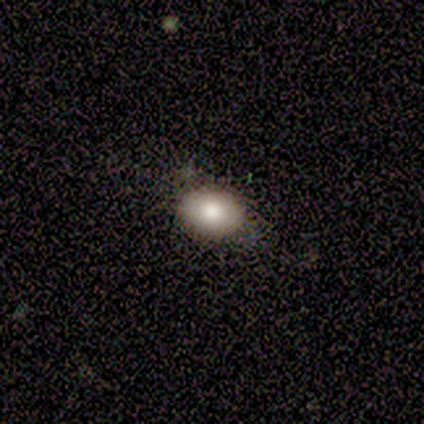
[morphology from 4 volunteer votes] Smooth or featured? 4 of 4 (100%) said smooth. How rounded? 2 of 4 (50%, tied with in between) said round. Merging? 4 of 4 (100%) said none.